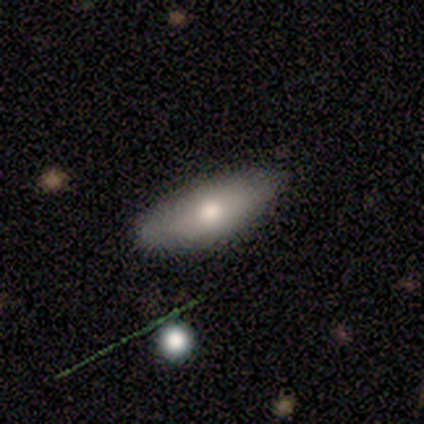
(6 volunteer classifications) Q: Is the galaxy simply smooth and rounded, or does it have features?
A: smooth — 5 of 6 (83%).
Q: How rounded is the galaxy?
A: in between — 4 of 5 (80%).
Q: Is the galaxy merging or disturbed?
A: none — 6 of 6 (100%).